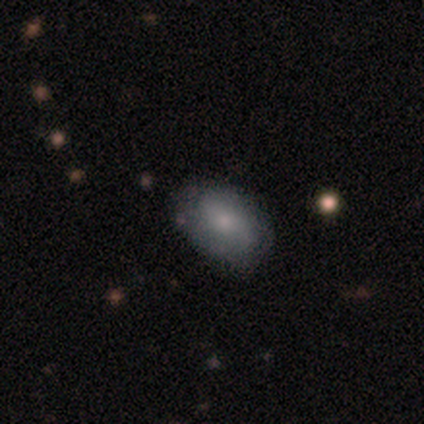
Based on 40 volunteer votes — Smooth or featured?
  - smooth: 65% *
  - featured or disk: 32%
  - star or artifact: 2%
How rounded?
  - in between: 85% *
  - round: 8%
  - cigar-shaped: 8%
Merging?
  - none: 64% *
  - minor disturbance: 23%
  - major disturbance: 10%
  - merger: 3%